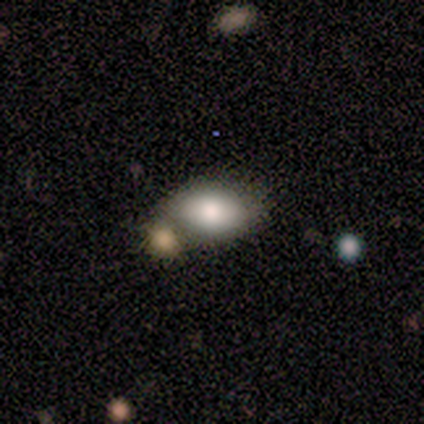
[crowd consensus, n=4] smooth-or-featured: featured or disk: 75% | smooth: 25% | star or artifact: 0%
  disk-edge-on: no: 67% | yes: 33%
    bar: no: 100% | strong: 0% | weak: 0%
    has-spiral-arms: no: 100% | yes: 0%
    bulge-size: large: 50% (tied) | moderate: 50% (tied) | dominant: 0% | small: 0% | none: 0%
  merging: none: 50% (tied) | merger: 50% (tied) | minor disturbance: 0% | major disturbance: 0%